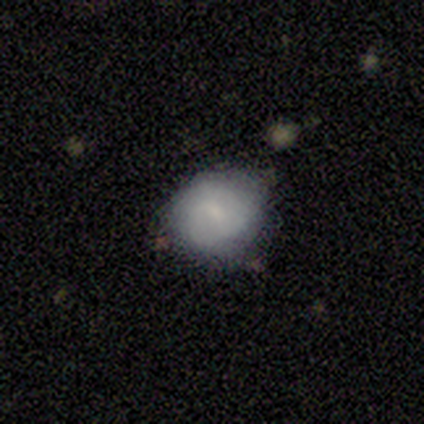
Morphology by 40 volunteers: smooth_or_featured: smooth (p=0.55) [alt: featured or disk p=0.42]
how_rounded: round (p=0.77) [alt: in between p=0.23]
merging: none (p=0.59) [alt: minor disturbance p=0.31]